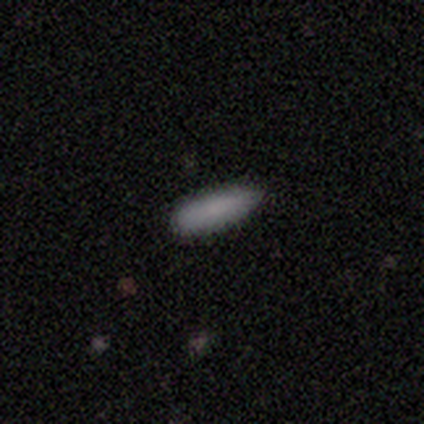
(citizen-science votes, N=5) Morphology: type=smooth (100%); roundness=in between (80%); merging=none (80%).